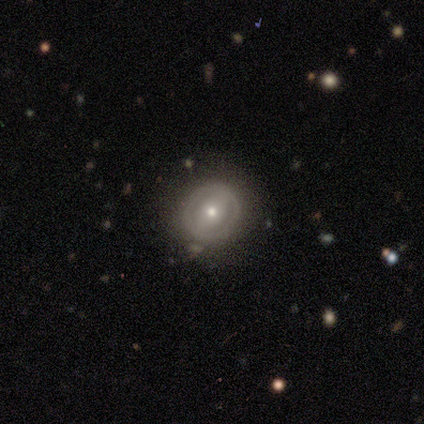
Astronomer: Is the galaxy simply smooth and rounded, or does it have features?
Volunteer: featured or disk — 82%.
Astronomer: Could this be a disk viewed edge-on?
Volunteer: no — 97%.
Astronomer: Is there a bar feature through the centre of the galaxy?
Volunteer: strong — 38%, tied with no at 38%.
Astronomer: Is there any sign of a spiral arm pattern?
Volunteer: no — 84%.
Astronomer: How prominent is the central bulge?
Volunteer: moderate — 59% (runner-up: small, 41%).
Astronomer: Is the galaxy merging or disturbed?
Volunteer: none — 82%.